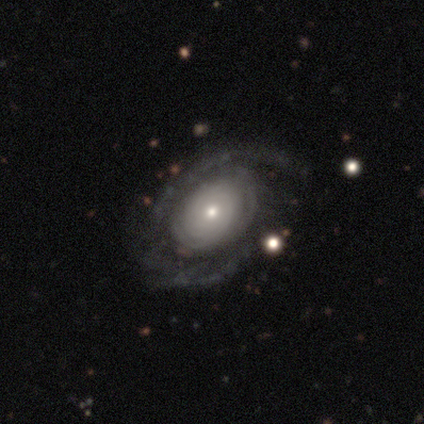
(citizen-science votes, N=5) A featured or disk galaxy (100%) with no bar (80%), 2 (50%) tight (50%, tied with medium) spiral arms (80%) and a small central bulge (60%).

Vote fractions:
- Smooth or featured? featured or disk: 100% / smooth: 0% / star or artifact: 0%
- Edge-on disk? no: 100% / yes: 0%
- Bar? no: 80% / strong: 20% / weak: 0%
- Spiral arms? yes: 80% / no: 20%
- Spiral winding? tight: 50% (tied) / medium: 50% (tied) / loose: 0%
- Spiral arm count? 2: 50% / 1: 25% / can't tell: 25% / 3: 0% / 4: 0% / more than 4: 0%
- Bulge size? small: 60% / moderate: 40% / dominant: 0% / large: 0% / none: 0%
- Merging? none: 60% / major disturbance: 40% / minor disturbance: 0% / merger: 0%